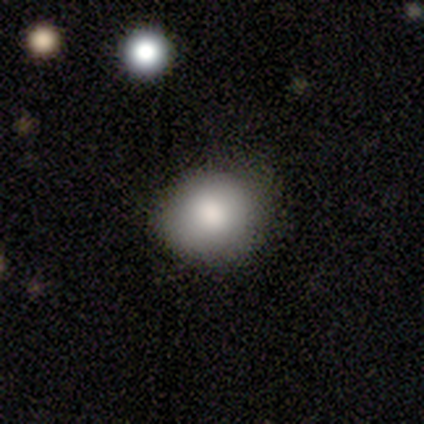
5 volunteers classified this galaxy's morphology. Overall: smooth (100%). How rounded: round (80%). Merging: none (80%).